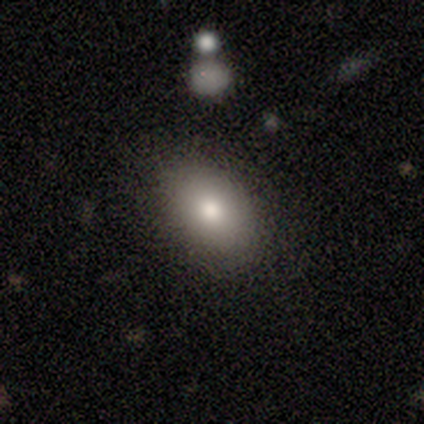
Smooth or featured?
  - smooth: 40% * (tied)
  - featured or disk: 40% * (tied)
  - star or artifact: 20%
How rounded?
  - in between: 100% *
  - round: 0%
  - cigar-shaped: 0%
Merging?
  - none: 100% *
  - minor disturbance: 0%
  - major disturbance: 0%
  - merger: 0%